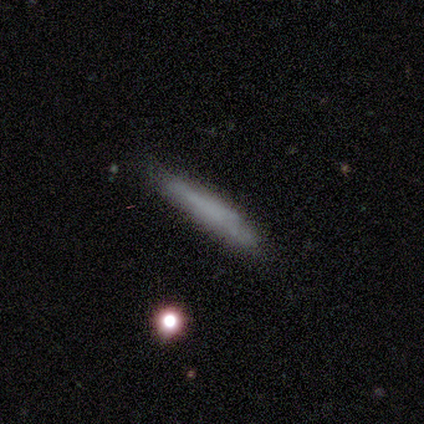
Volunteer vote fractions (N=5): smooth 100%, featured or disk 0%, star or artifact 0%. Down the decision tree: how rounded — cigar-shaped (100%); merging — none (100%).